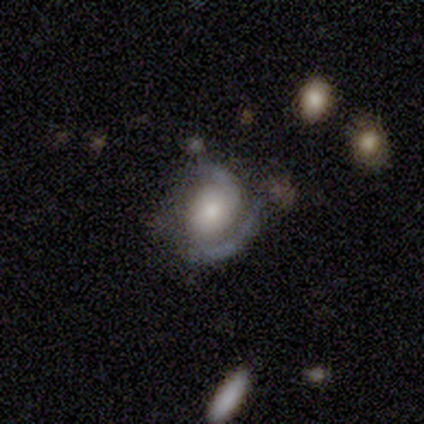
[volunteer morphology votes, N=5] Smooth or featured?
  - featured or disk: 100% *
  - smooth: 0%
  - star or artifact: 0%
Edge-on disk?
  - no: 100% *
  - yes: 0%
Bar?
  - no: 80% *
  - weak: 20%
  - strong: 0%
Spiral arms?
  - yes: 80% *
  - no: 20%
Spiral winding?
  - tight: 50% * (tied)
  - medium: 50% * (tied)
  - loose: 0%
Spiral arm count?
  - 2: 75% *
  - 1: 25%
  - 3: 0%
  - 4: 0%
  - more than 4: 0%
  - can't tell: 0%
Bulge size?
  - large: 40% * (tied)
  - moderate: 40% * (tied)
  - small: 20%
  - dominant: 0%
  - none: 0%
Merging?
  - none: 100% *
  - minor disturbance: 0%
  - major disturbance: 0%
  - merger: 0%